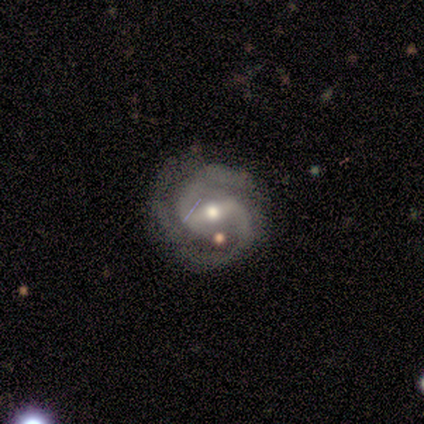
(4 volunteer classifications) This appears to be a featured or disk galaxy (100%) with a weak bar (75%), 2 (100%) tight (50%, tied with medium) spiral arms (100%) and a moderate central bulge (50%, tied with small). Merging: none (50%, tied with major disturbance).